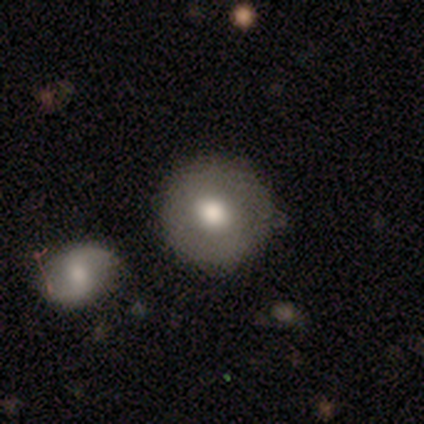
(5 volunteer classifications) Overall: smooth (80%). How rounded: round (100%). Merging: none (40%, tied with merger).